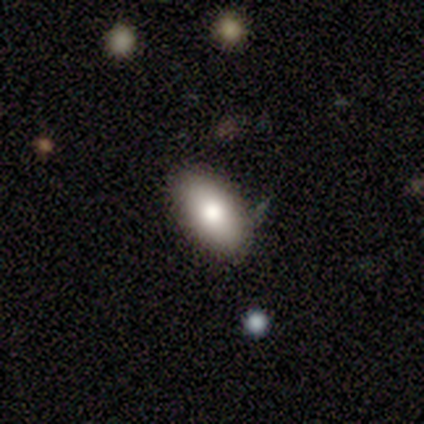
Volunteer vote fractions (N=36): Smooth or featured?
  - smooth: 81% *
  - featured or disk: 19%
  - star or artifact: 0%
How rounded?
  - in between: 86% *
  - round: 10%
  - cigar-shaped: 3%
Merging?
  - none: 86% *
  - minor disturbance: 14%
  - major disturbance: 0%
  - merger: 0%